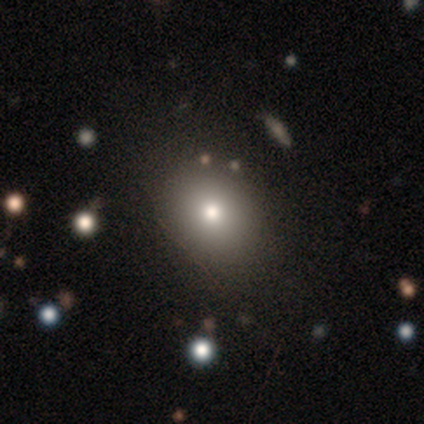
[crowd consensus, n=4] A smooth galaxy with no disk features (50%) that is round (50%, tied with in between).

Vote fractions:
- Smooth or featured? smooth: 50% / featured or disk: 25% / star or artifact: 25%
- How rounded? round: 50% (tied) / in between: 50% (tied) / cigar-shaped: 0%
- Merging? none: 100% / minor disturbance: 0% / major disturbance: 0% / merger: 0%